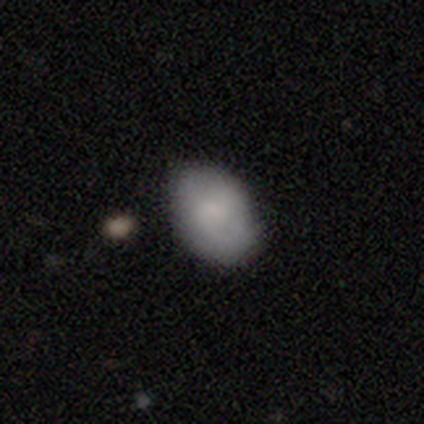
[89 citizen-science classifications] This appears to be a smooth galaxy with no disk features (69%) that is in between round and cigar-shaped (84%). Merging: none (78%).